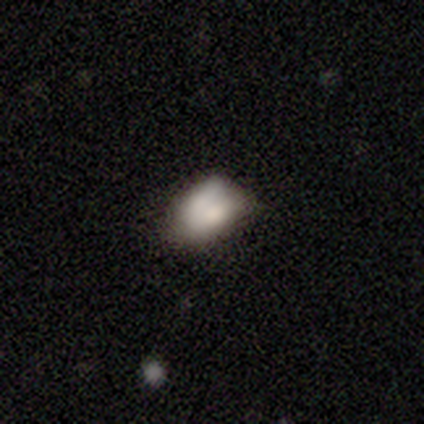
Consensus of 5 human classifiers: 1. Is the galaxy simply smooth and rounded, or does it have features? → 60% smooth, 40% featured or disk, 0% star or artifact.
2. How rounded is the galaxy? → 67% in between, 33% round, 0% cigar-shaped.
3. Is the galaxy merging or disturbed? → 40% none (tied), 40% minor disturbance (tied), 20% merger, 0% major disturbance.